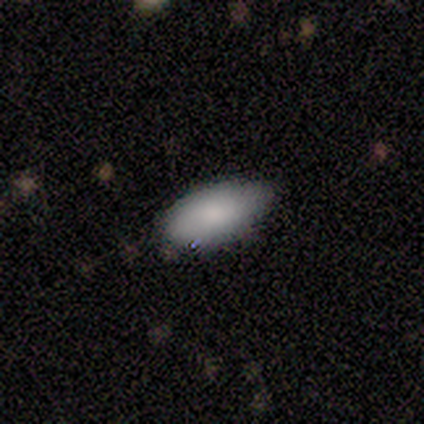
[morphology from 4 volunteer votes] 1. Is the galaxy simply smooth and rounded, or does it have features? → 100% smooth, 0% featured or disk, 0% star or artifact.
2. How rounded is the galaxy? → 100% in between, 0% round, 0% cigar-shaped.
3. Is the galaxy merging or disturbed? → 50% none (tied), 50% minor disturbance (tied), 0% major disturbance, 0% merger.